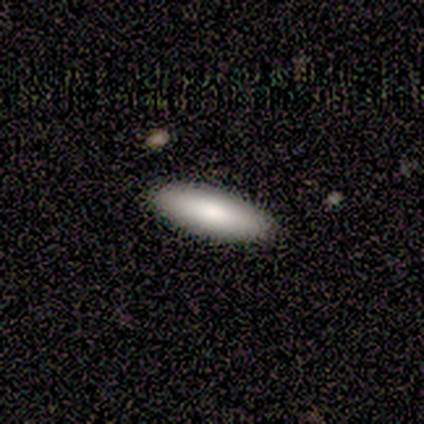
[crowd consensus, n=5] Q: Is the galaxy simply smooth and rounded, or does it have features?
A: smooth — 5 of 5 (100%).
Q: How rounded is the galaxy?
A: in between — 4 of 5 (80%).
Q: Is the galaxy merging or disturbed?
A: none — 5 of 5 (100%).